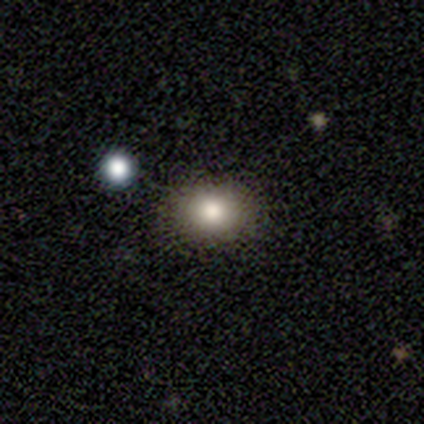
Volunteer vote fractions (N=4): smooth-or-featured: smooth: 100% | featured or disk: 0% | star or artifact: 0%
  how-rounded: in between: 75% | round: 25% | cigar-shaped: 0%
  merging: none: 75% | minor disturbance: 25% | major disturbance: 0% | merger: 0%